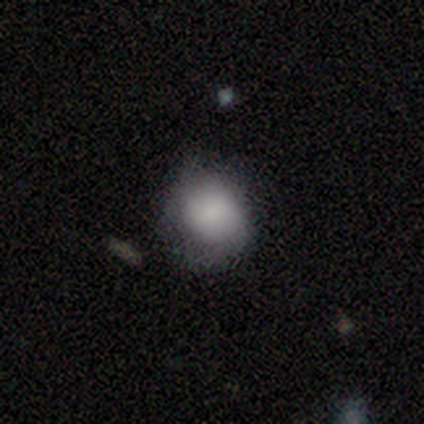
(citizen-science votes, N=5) This is clearly a smooth galaxy (100%). How rounded: clearly round (80%). Merging: likely none (60%).